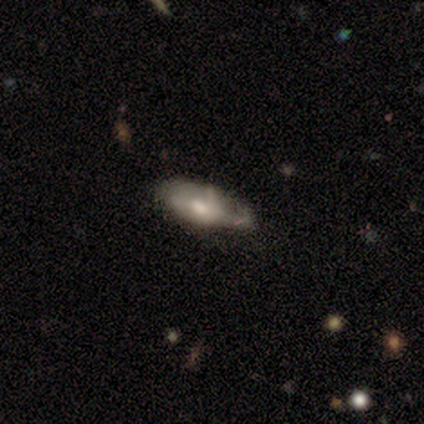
smooth-or-featured: smooth: 40% (tied) | featured or disk: 40% (tied) | star or artifact: 20%
  how-rounded: in between: 100% | round: 0% | cigar-shaped: 0%
  merging: minor disturbance: 75% | none: 25% | major disturbance: 0% | merger: 0%